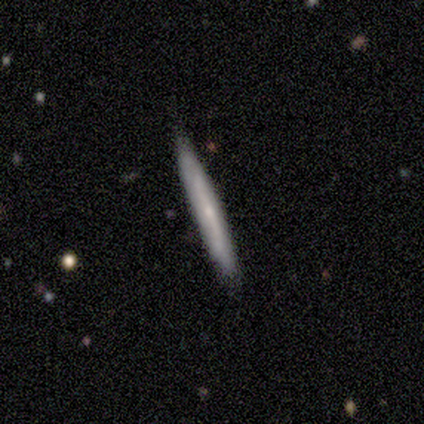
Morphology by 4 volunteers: Q: Smooth or featured?
A: smooth (75%); runner-up: featured or disk (25%)
Q: How rounded?
A: cigar-shaped (100%)
Q: Merging?
A: none (50%); tied with: minor disturbance (50%)